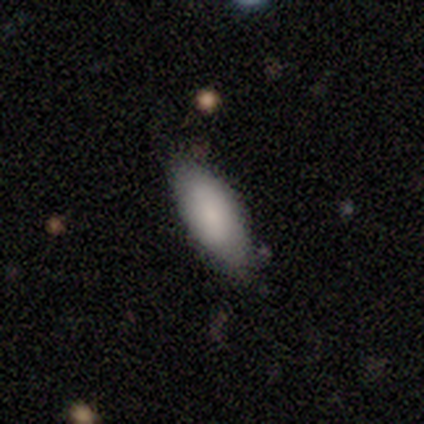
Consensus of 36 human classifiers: smooth 75%, featured or disk 14%, star or artifact 11%. Down the decision tree: how rounded — in between (78%); merging — none (72%).